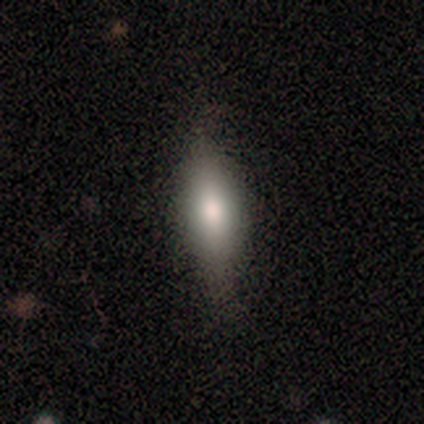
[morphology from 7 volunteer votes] type=smooth (86%); roundness=in between (50%, tied with cigar-shaped); merging=none (100%).